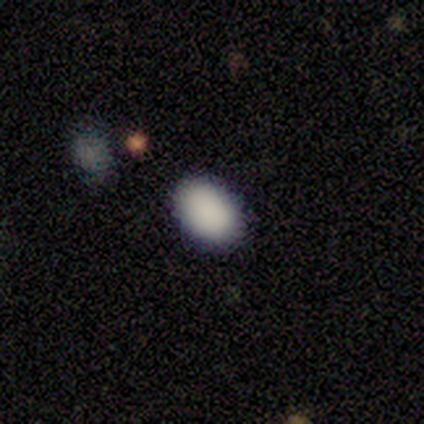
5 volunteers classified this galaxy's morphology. smooth-or-featured: smooth: 100% | featured or disk: 0% | star or artifact: 0%
  how-rounded: in between: 100% | round: 0% | cigar-shaped: 0%
  merging: none: 100% | minor disturbance: 0% | major disturbance: 0% | merger: 0%